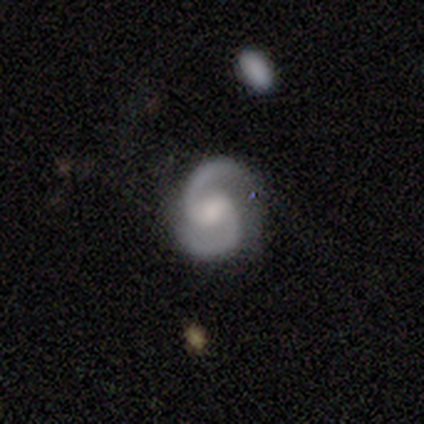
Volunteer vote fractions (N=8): Smooth or featured: featured or disk — 100%
Edge-on disk: no — 100%
Bar: weak — 62% (no — 38%)
Spiral arms: yes — 100%
Spiral winding: medium — 75% (tight — 12%)
Spiral arm count: 2 — 100%
Bulge size: moderate — 62% (small — 25%)
Merging: none — 62% (minor disturbance — 38%)